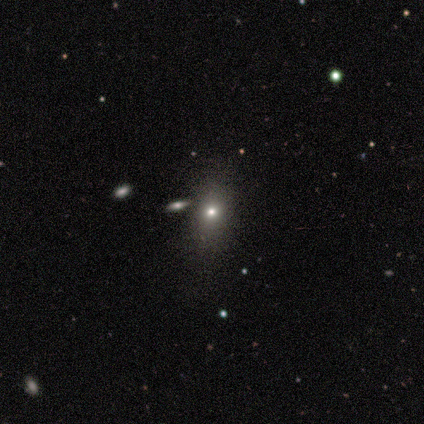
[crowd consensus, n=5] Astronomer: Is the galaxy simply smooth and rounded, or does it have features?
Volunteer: smooth — 40%, tied with star or artifact at 40%.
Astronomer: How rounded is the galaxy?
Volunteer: round — 50%, tied with in between at 50%.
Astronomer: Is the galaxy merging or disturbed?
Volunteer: none — 100%.